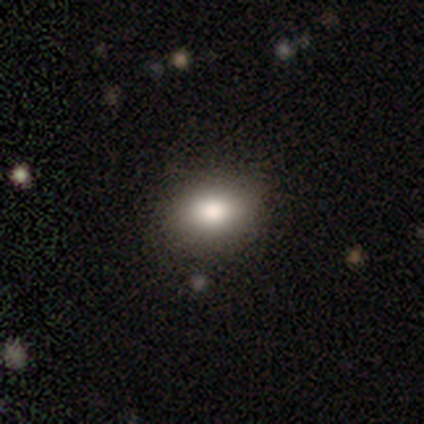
Morphology: type=smooth (78%); roundness=in between (62%); merging=none (83%).